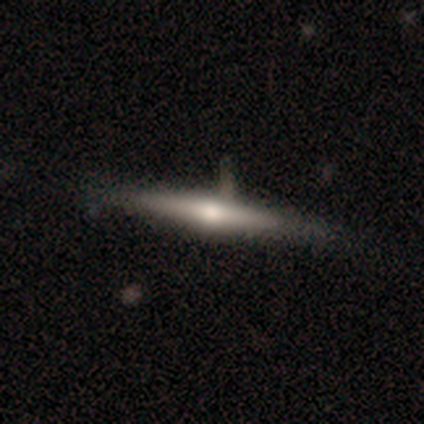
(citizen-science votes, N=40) featured or disk 65%, smooth 35%, star or artifact 0%. Down the decision tree: edge-on disk — yes (100%); edge-on bulge — rounded (88%); merging — none (40%).